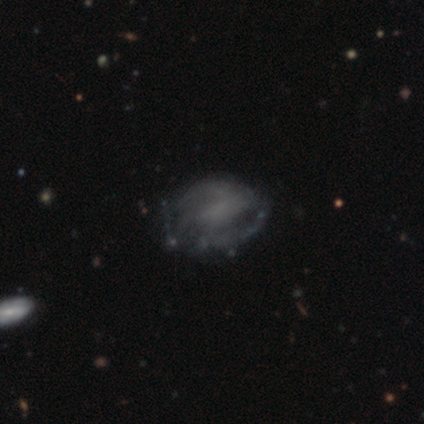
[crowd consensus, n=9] Smooth or featured: featured or disk — 78% (smooth — 11%)
Edge-on disk: no — 100%
Bar: no — 86% (strong — 14%)
Spiral arms: yes — 100%
Spiral winding: tight — 43% (tied with medium — 43%)
Spiral arm count: 2 — 71% (can't tell — 29%)
Bulge size: none — 71% (small — 29%)
Merging: none — 62% (minor disturbance — 25%)